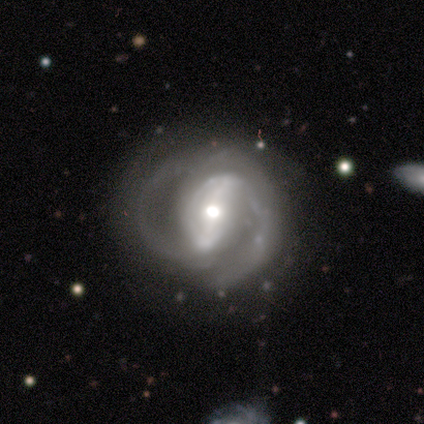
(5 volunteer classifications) Smooth or featured? featured or disk (60%)
Edge-on disk? no (67%)
Bar? strong (100%)
Spiral arms? yes (100%)
Spiral winding? tight (50%, tied with medium)
Spiral arm count? 2 (50%, tied with can't tell)
Bulge size? moderate (50%, tied with small)
Merging? none (50%, tied with minor disturbance)